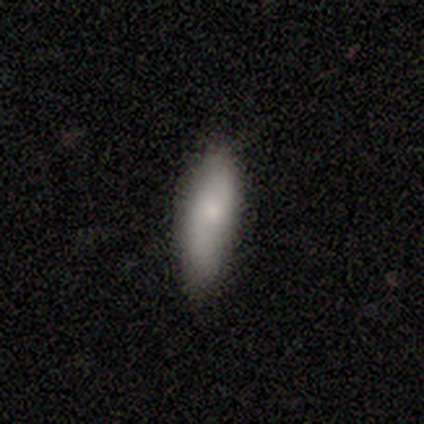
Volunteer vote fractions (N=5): Smooth or featured? smooth (60%)
How rounded? cigar-shaped (100%)
Merging? none (60%)